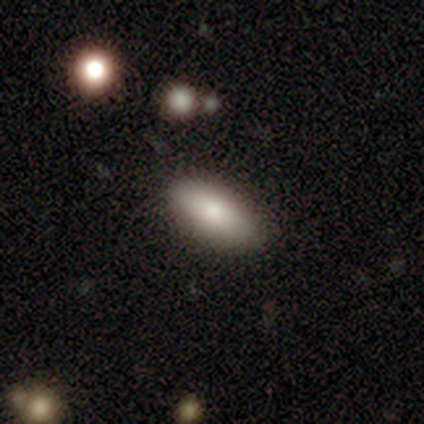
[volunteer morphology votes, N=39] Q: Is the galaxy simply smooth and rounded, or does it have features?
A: smooth — 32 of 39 (82%).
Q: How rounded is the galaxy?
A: in between — 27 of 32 (84%).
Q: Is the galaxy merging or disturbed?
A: none — 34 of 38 (89%).